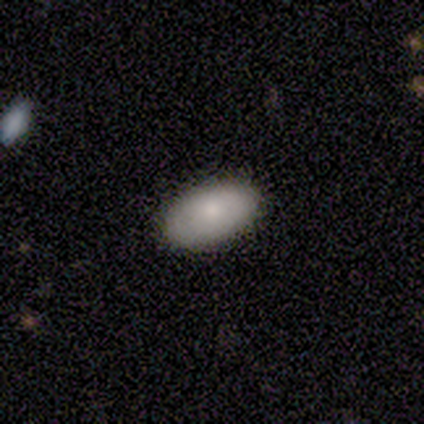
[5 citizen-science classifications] smooth-or-featured: smooth: 80% | featured or disk: 20% | star or artifact: 0%
  how-rounded: in between: 100% | round: 0% | cigar-shaped: 0%
  merging: none: 80% | minor disturbance: 20% | major disturbance: 0% | merger: 0%